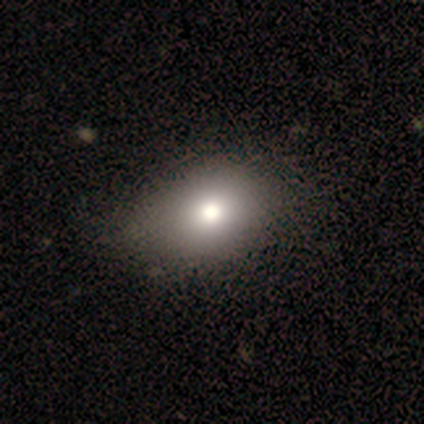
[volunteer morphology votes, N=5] smooth-or-featured: smooth: 80% | star or artifact: 20% | featured or disk: 0%
  how-rounded: round: 75% | in between: 25% | cigar-shaped: 0%
  merging: none: 50% | minor disturbance: 25% | major disturbance: 25% | merger: 0%